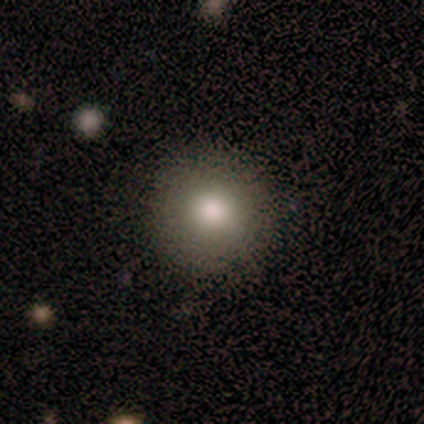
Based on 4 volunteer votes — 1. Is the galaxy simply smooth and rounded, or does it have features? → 75% smooth, 25% star or artifact, 0% featured or disk.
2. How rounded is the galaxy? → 67% round, 33% in between, 0% cigar-shaped.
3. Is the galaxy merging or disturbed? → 100% none, 0% minor disturbance, 0% major disturbance, 0% merger.